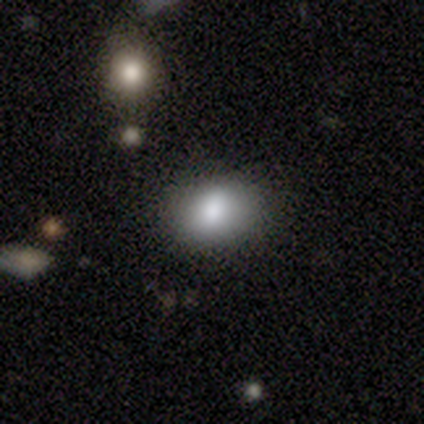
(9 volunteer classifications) smooth_or_featured: smooth (p=0.78) [alt: featured or disk p=0.22]
how_rounded: in between (p=0.86) [alt: round p=0.14]
merging: none (p=0.89) [alt: minor disturbance p=0.11]